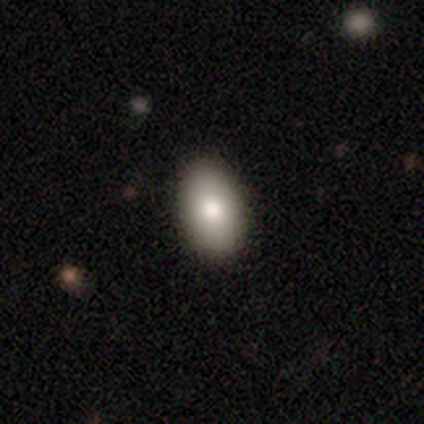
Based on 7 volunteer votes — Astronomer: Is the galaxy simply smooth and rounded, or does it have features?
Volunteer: smooth — 86%.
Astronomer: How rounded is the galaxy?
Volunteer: in between — 83%.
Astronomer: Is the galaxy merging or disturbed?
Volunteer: none — 100%.